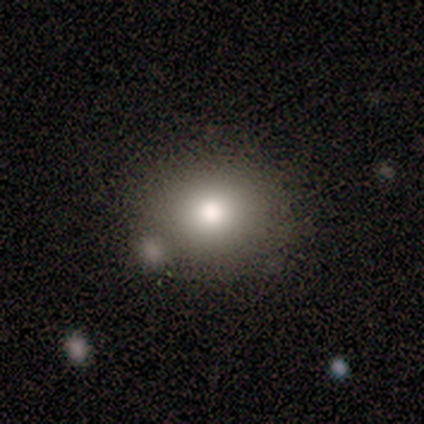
Smooth or featured: smooth — 100%
How rounded: round — 60% (in between — 40%)
Merging: none — 100%